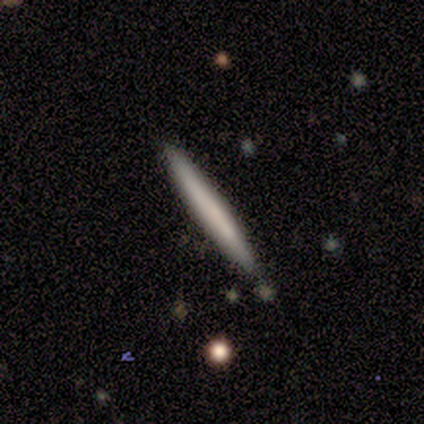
Q: Smooth or featured?
A: smooth (78%); runner-up: featured or disk (22%)
Q: How rounded?
A: cigar-shaped (100%)
Q: Merging?
A: none (78%); runner-up: minor disturbance (22%)